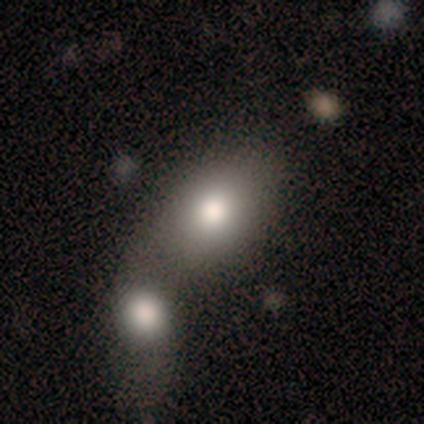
A smooth galaxy with no disk features (100%) that is in between round and cigar-shaped (80%).

Vote fractions:
- Smooth or featured? smooth: 100% / featured or disk: 0% / star or artifact: 0%
- How rounded? in between: 80% / round: 20% / cigar-shaped: 0%
- Merging? merger: 60% / none: 20% / major disturbance: 20% / minor disturbance: 0%